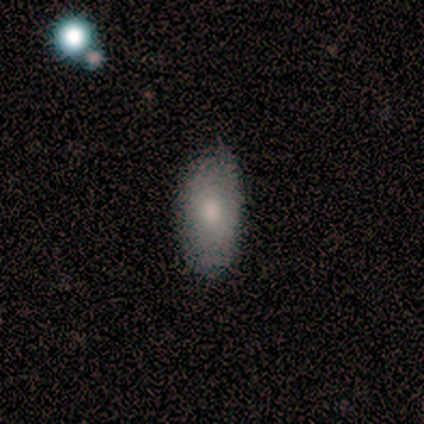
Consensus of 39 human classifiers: Morphology: type=smooth (69%); roundness=in between (93%); merging=none (89%).